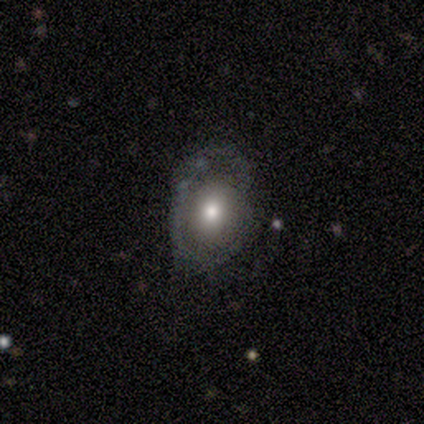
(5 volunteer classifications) Smooth or featured: smooth — 40% (tied with star or artifact — 40%)
How rounded: in between — 100%
Merging: none — 67% (minor disturbance — 33%)